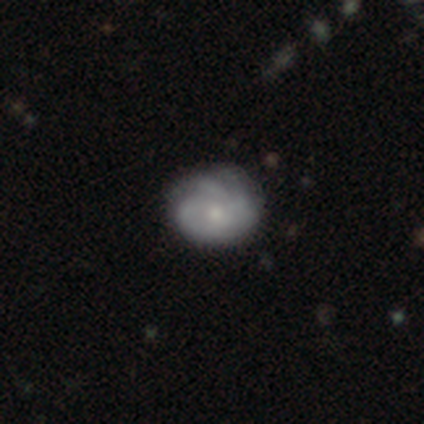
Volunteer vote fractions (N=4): smooth-or-featured: featured or disk: 75% | star or artifact: 25% | smooth: 0%
  disk-edge-on: no: 100% | yes: 0%
    bar: no: 67% | weak: 33% | strong: 0%
    has-spiral-arms: yes: 100% | no: 0%
      spiral-winding: tight: 67% | medium: 33% | loose: 0%
      spiral-arm-count: can't tell: 100% | 1: 0% | 2: 0% | 3: 0% | 4: 0% | more than 4: 0%
    bulge-size: small: 100% | dominant: 0% | large: 0% | moderate: 0% | none: 0%
  merging: none: 100% | minor disturbance: 0% | major disturbance: 0% | merger: 0%